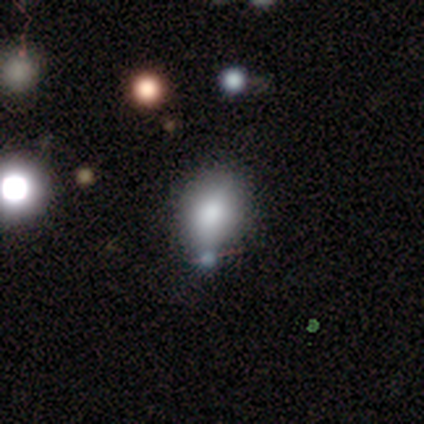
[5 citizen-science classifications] smooth_or_featured: smooth (p=0.60) [alt: featured or disk p=0.20]
how_rounded: in between (p=0.67) [alt: round p=0.33]
merging: none (p=1.00)